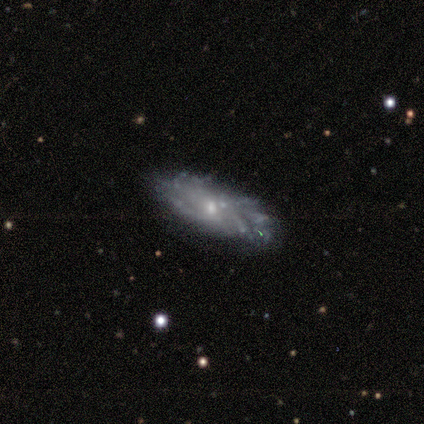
smooth-or-featured: featured or disk: 80% | smooth: 20% | star or artifact: 0%
  disk-edge-on: no: 75% | yes: 25%
    bar: no: 67% | weak: 33% | strong: 0%
    has-spiral-arms: yes: 100% | no: 0%
      spiral-winding: medium: 67% | tight: 33% | loose: 0%
      spiral-arm-count: 1: 33% (tied) | 2: 33% (tied) | can't tell: 33% (tied) | 3: 0% | 4: 0% | more than 4: 0%
    bulge-size: small: 100% | dominant: 0% | large: 0% | moderate: 0% | none: 0%
  merging: none: 60% | minor disturbance: 20% | major disturbance: 20% | merger: 0%